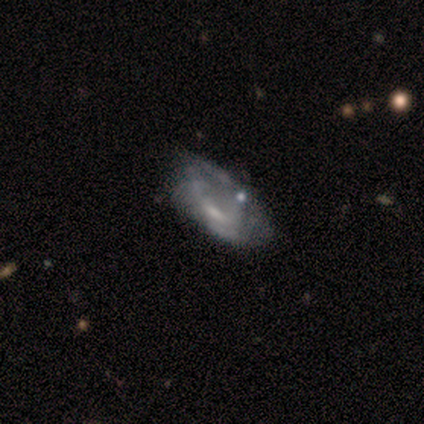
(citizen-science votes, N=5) Smooth or featured?
  - featured or disk: 60% *
  - smooth: 40%
  - star or artifact: 0%
Edge-on disk?
  - no: 100% *
  - yes: 0%
Bar?
  - no: 67% *
  - weak: 33%
  - strong: 0%
Spiral arms?
  - yes: 67% *
  - no: 33%
Spiral winding?
  - tight: 50% * (tied)
  - loose: 50% * (tied)
  - medium: 0%
Spiral arm count?
  - can't tell: 100% *
  - 1: 0%
  - 2: 0%
  - 3: 0%
  - 4: 0%
  - more than 4: 0%
Bulge size?
  - moderate: 33% * (tied)
  - small: 33% * (tied)
  - none: 33% * (tied)
  - dominant: 0%
  - large: 0%
Merging?
  - minor disturbance: 60% *
  - major disturbance: 40%
  - none: 0%
  - merger: 0%